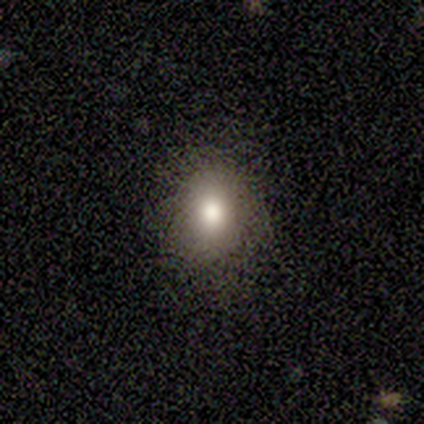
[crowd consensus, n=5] A smooth galaxy with no disk features (60%) that is round (67%).

Vote fractions:
- Smooth or featured? smooth: 60% / featured or disk: 40% / star or artifact: 0%
- How rounded? round: 67% / in between: 33% / cigar-shaped: 0%
- Merging? minor disturbance: 60% / none: 40% / major disturbance: 0% / merger: 0%